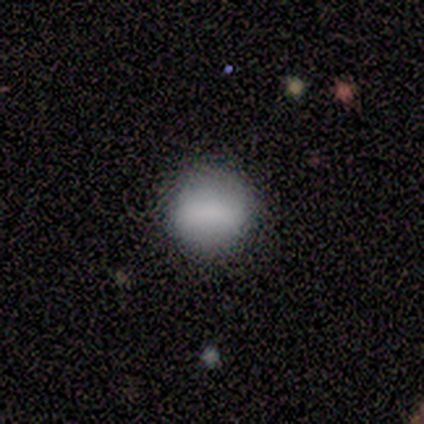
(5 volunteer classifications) Smooth or featured?
  - smooth: 100% *
  - featured or disk: 0%
  - star or artifact: 0%
How rounded?
  - round: 80% *
  - cigar-shaped: 20%
  - in between: 0%
Merging?
  - none: 100% *
  - minor disturbance: 0%
  - major disturbance: 0%
  - merger: 0%